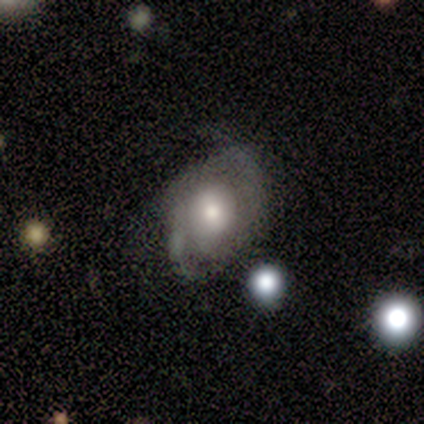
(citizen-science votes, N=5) This is likely a smooth galaxy (60%). How rounded: clearly round (100%). Merging: likely none (60%).